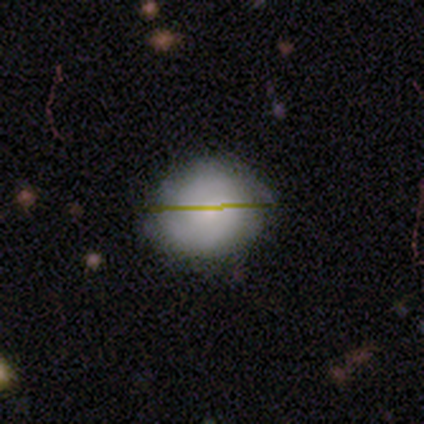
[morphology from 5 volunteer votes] Overall: smooth (60%; featured or disk 40%). How rounded: round (100%). Merging: none (80%).